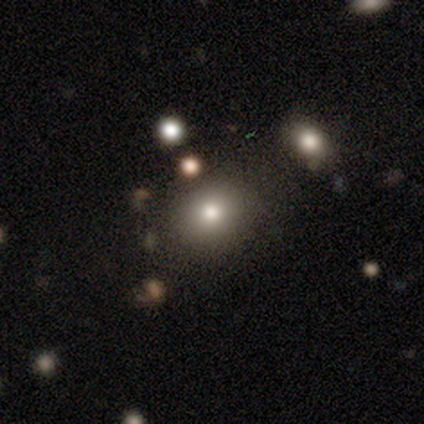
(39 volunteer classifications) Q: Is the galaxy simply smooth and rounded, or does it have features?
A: smooth — 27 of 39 (69%).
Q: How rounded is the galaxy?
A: round — 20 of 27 (74%).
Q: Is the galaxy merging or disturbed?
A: none — 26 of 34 (76%).